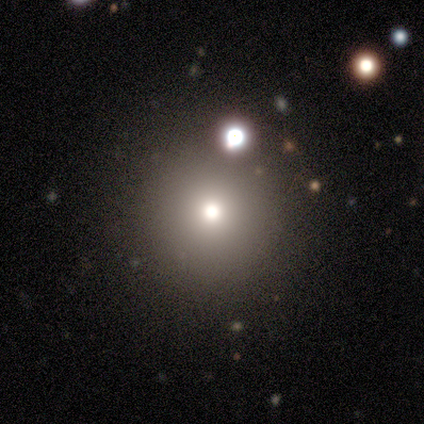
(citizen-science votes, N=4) Smooth or featured? 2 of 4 (50%, tied with star or artifact) said smooth. How rounded? 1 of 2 (50%, tied with in between) said round. Merging? 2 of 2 (100%) said none.